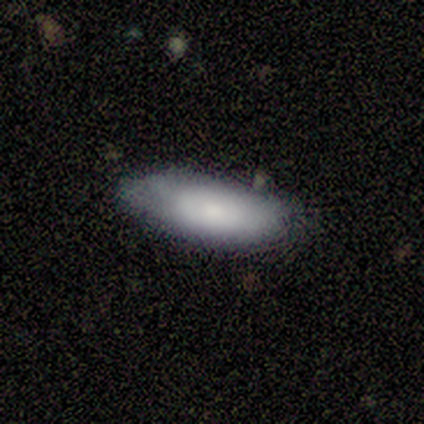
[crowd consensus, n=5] Smooth or featured? smooth (100%)
How rounded? in between (60%)
Merging? none (60%)